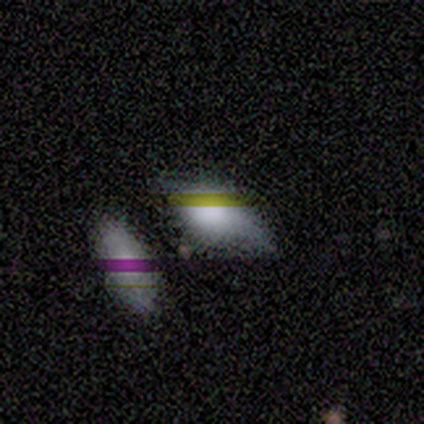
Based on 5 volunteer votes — A smooth galaxy with no disk features (60%) that is in between round and cigar-shaped (100%).

Vote fractions:
- Smooth or featured? smooth: 60% / star or artifact: 40% / featured or disk: 0%
- How rounded? in between: 100% / round: 0% / cigar-shaped: 0%
- Merging? minor disturbance: 67% / none: 33% / major disturbance: 0% / merger: 0%